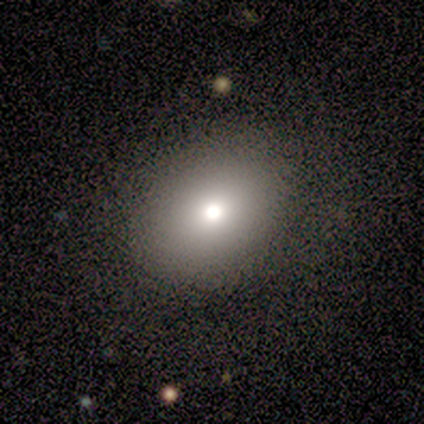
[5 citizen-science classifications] Smooth or featured?
  - smooth: 100% *
  - featured or disk: 0%
  - star or artifact: 0%
How rounded?
  - in between: 60% *
  - round: 40%
  - cigar-shaped: 0%
Merging?
  - none: 60% *
  - minor disturbance: 20%
  - major disturbance: 20%
  - merger: 0%